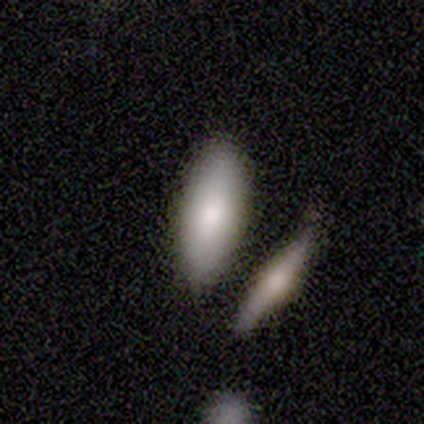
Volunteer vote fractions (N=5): This is clearly a smooth galaxy (80%). How rounded: likely in between (75%). Merging: likely none (60%).